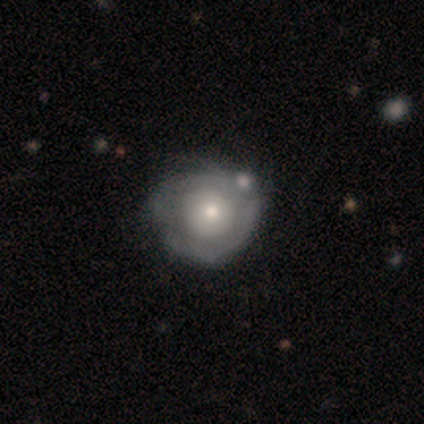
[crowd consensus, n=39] Smooth or featured? featured or disk (54%)
Edge-on disk? no (95%)
Bar? no (95%)
Spiral arms? yes (50%, tied with no)
Spiral winding? tight (70%)
Spiral arm count? can't tell (60%)
Bulge size? moderate (55%)
Merging? none (23%, tied with minor disturbance)